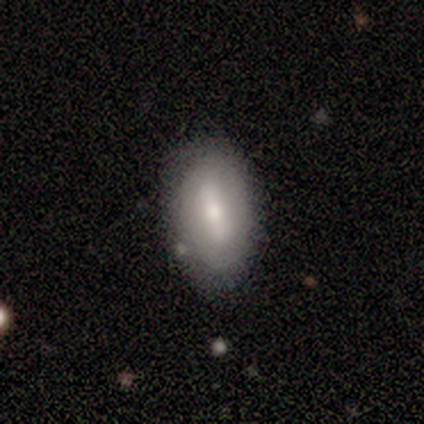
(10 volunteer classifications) This appears to be a smooth galaxy with no disk features (50%, tied with featured or disk) that is in between round and cigar-shaped (100%). Merging: none (70%).